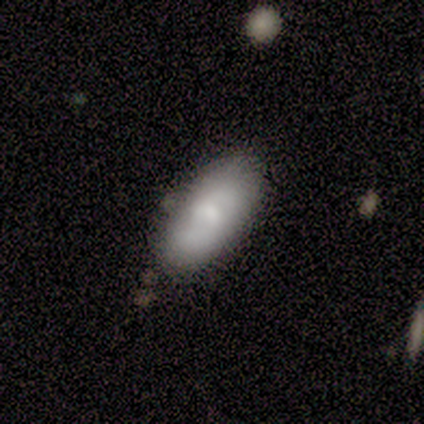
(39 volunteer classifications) smooth-or-featured: smooth: 62% | featured or disk: 36% | star or artifact: 3%
  how-rounded: in between: 92% | cigar-shaped: 8% | round: 0%
  merging: none: 71% | minor disturbance: 21% | major disturbance: 5% | merger: 3%